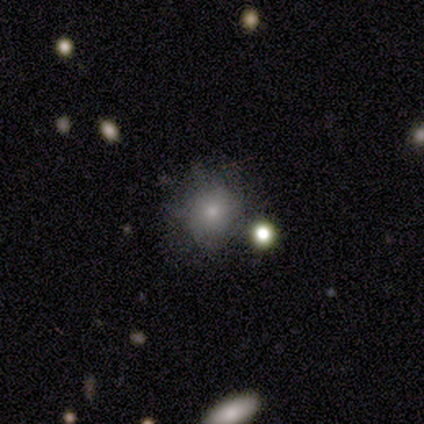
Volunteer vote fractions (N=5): A smooth galaxy with no disk features (80%) that is round (100%). Merging: none (75%).